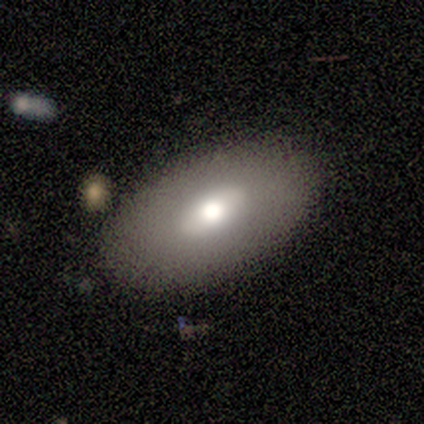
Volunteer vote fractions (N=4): Q: Smooth or featured?
A: smooth (50%); tied with: featured or disk (50%)
Q: How rounded?
A: in between (100%)
Q: Merging?
A: none (100%)